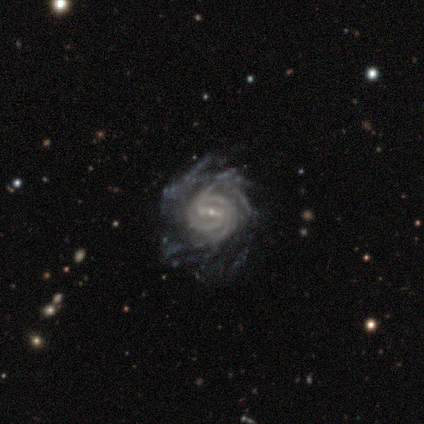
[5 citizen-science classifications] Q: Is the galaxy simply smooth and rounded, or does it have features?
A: featured or disk — 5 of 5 (100%).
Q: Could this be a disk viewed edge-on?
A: no — 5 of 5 (100%).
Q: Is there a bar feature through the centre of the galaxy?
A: weak — 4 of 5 (80%).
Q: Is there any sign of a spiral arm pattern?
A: yes — 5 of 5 (100%).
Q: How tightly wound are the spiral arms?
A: tight — 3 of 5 (60%).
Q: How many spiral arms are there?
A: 4 — 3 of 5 (60%).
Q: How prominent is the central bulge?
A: small — 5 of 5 (100%).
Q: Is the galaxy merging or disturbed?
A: none — 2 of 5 (40%, tied with major disturbance).